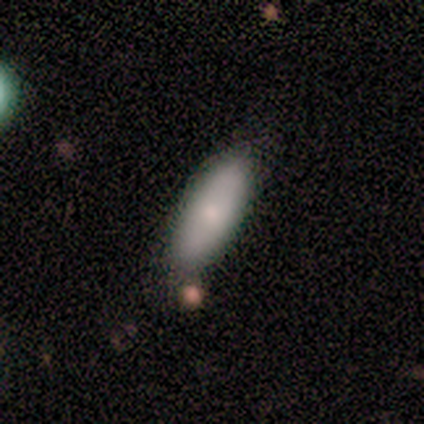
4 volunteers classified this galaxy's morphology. Smooth or featured? 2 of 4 (50%) said featured or disk. Edge-on disk? 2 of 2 (100%) said no. Bar? 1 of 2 (50%, tied with no) said strong. Spiral arms? 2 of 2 (100%) said no. Bulge size? 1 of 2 (50%, tied with small) said moderate. Merging? 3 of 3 (100%) said none.